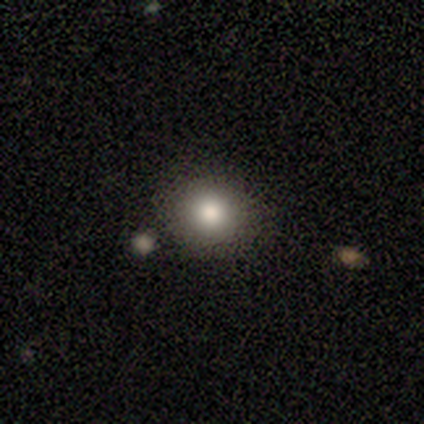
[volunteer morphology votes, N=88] This is clearly a smooth galaxy (85%). How rounded: clearly round (91%). Merging: clearly none (88%).